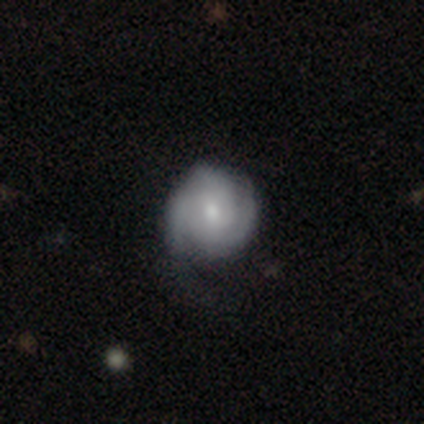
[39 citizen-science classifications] This is likely a featured or disk galaxy (64%). It is clearly not viewed edge-on (100%). Bar: possibly no (56%). Spiral arm pattern: clearly yes (84%). Spiral arm count: possibly 3 (52%). Spiral winding: likely tight (67%). Central bulge: possibly moderate (56%). Merging: likely none (61%).